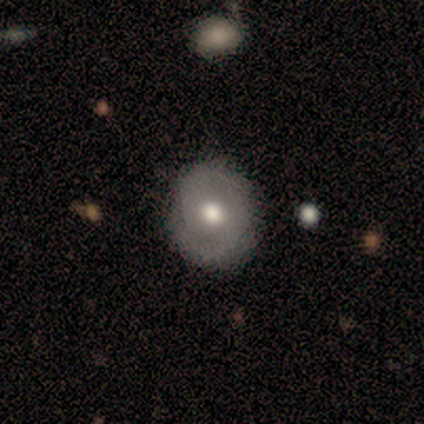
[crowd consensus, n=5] smooth 40% (tied), featured or disk 40% (tied), star or artifact 20%. Down the decision tree: how rounded — round (100%); merging — none (100%).